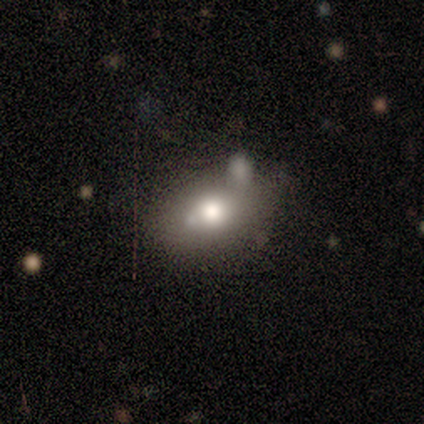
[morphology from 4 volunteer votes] Smooth or featured? smooth (100%)
How rounded? in between (100%)
Merging? none (50%, tied with minor disturbance)